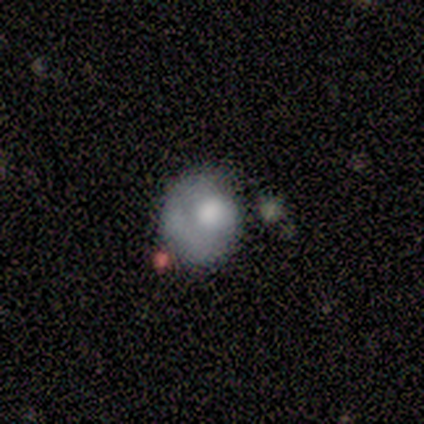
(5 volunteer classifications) smooth-or-featured: smooth: 60% | featured or disk: 40% | star or artifact: 0%
  how-rounded: round: 67% | in between: 33% | cigar-shaped: 0%
  merging: none: 40% (tied) | major disturbance: 40% (tied) | minor disturbance: 20% | merger: 0%